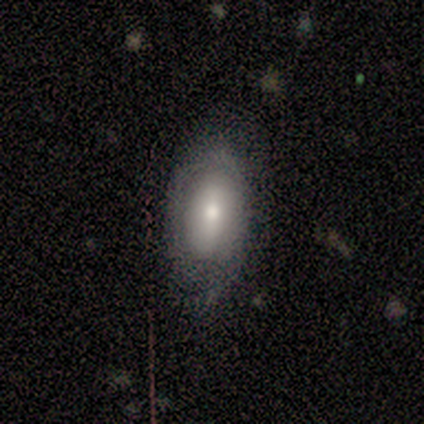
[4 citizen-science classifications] smooth-or-featured: featured or disk: 50% | smooth: 25% | star or artifact: 25%
  disk-edge-on: yes: 50% (tied) | no: 50% (tied)
    edge-on-bulge: rounded: 100% | boxy: 0% | none: 0%
  merging: none: 67% | merger: 33% | minor disturbance: 0% | major disturbance: 0%